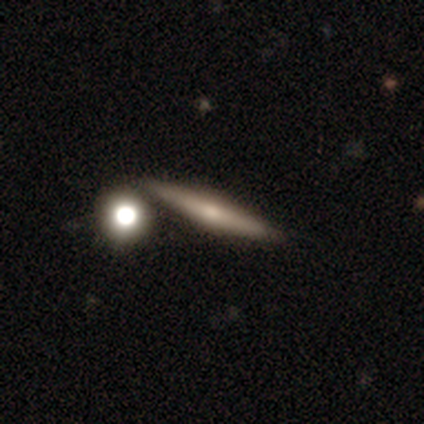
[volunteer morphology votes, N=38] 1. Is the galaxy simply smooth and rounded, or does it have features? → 66% featured or disk, 29% smooth, 5% star or artifact.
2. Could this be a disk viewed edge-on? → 88% yes, 12% no.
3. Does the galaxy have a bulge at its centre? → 82% rounded, 9% boxy, 9% none.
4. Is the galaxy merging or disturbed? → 67% none, 25% merger, 6% minor disturbance, 3% major disturbance.